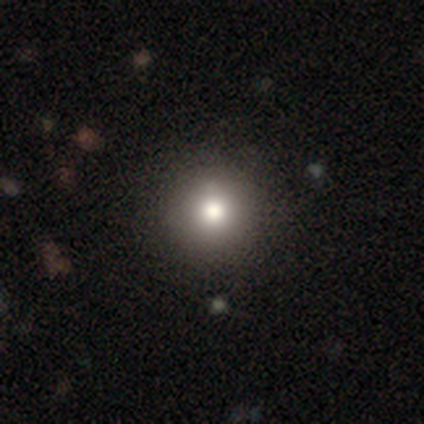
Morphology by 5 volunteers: Volunteers were most divided on "how rounded": round: 80%, in between: 20%, cigar-shaped: 0%. More confident: smooth or featured — smooth (100%); merging — none (80%).